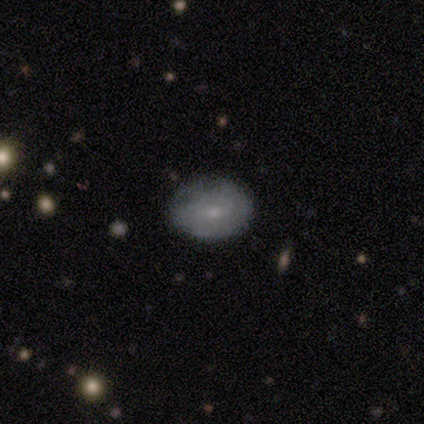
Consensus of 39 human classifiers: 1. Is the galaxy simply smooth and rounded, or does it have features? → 72% smooth, 26% featured or disk, 3% star or artifact.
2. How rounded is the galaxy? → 75% in between, 25% round, 0% cigar-shaped.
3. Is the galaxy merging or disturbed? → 66% none, 26% minor disturbance, 5% major disturbance, 3% merger.